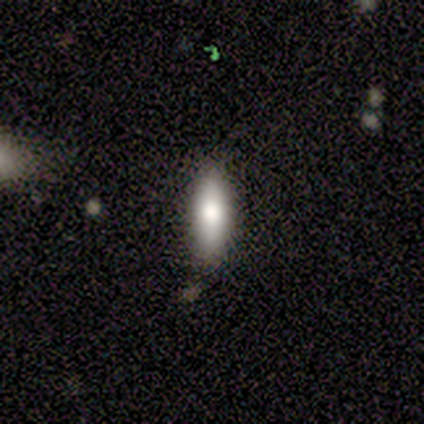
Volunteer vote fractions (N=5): A smooth galaxy with no disk features (80%) that is in between round and cigar-shaped (75%). Merging: none (80%).